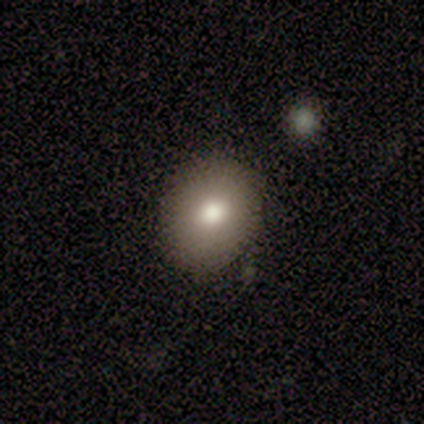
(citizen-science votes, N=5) This appears to be a smooth galaxy with no disk features (80%) that is in between round and cigar-shaped (75%). Merging: none (50%).